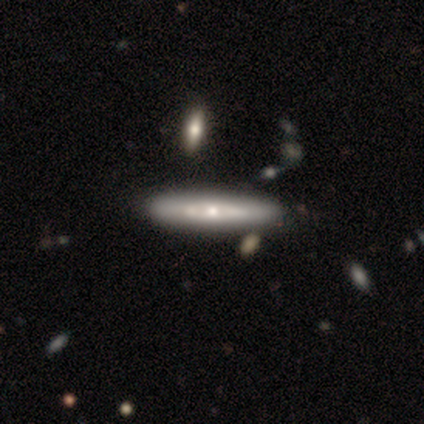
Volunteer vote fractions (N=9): smooth_or_featured: featured or disk (p=0.67) [alt: smooth p=0.33]
disk_edge_on: yes (p=0.50) [tied with: no p=0.50]
edge_on_bulge: rounded (p=1.00)
merging: none (p=1.00)